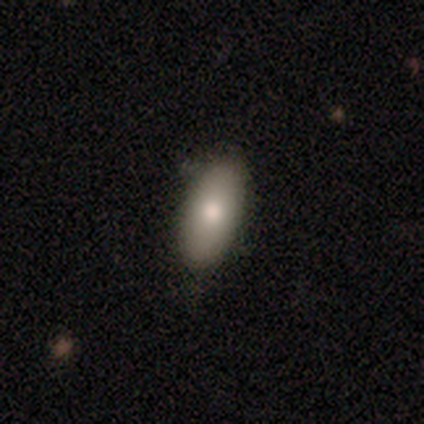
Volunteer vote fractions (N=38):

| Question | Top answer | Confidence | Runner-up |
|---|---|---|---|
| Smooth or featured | smooth | 84% | featured or disk (11%) |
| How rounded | in between | 84% | cigar-shaped (16%) |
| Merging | none | 72% | minor disturbance (25%) |